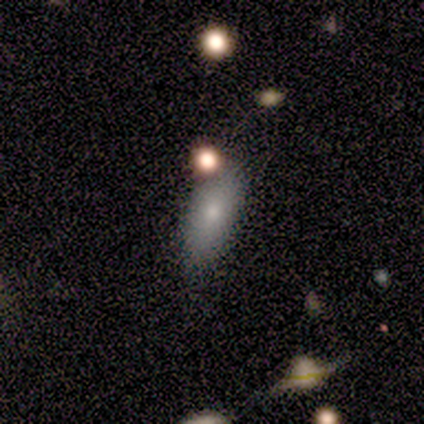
Q: Smooth or featured?
A: smooth (100%)
Q: How rounded?
A: in between (60%); runner-up: round (20%)
Q: Merging?
A: none (60%); runner-up: minor disturbance (40%)